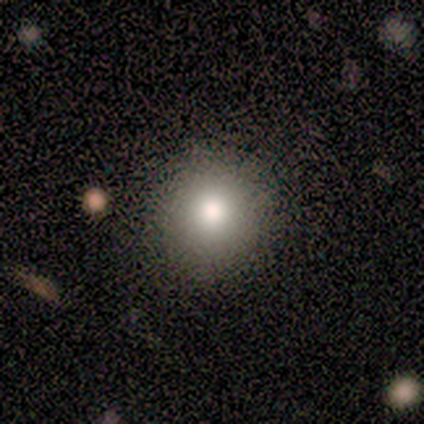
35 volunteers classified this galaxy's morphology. smooth-or-featured: smooth: 74% | featured or disk: 14% | star or artifact: 11%
  how-rounded: round: 96% | in between: 4% | cigar-shaped: 0%
  merging: none: 87% | minor disturbance: 10% | major disturbance: 3% | merger: 0%